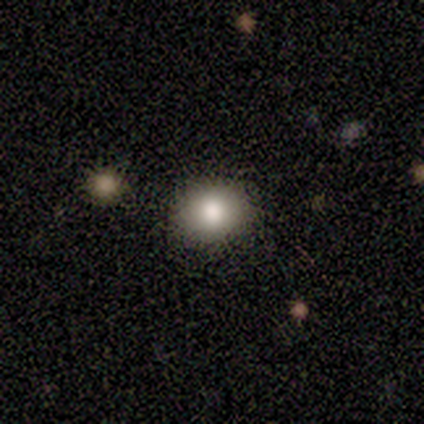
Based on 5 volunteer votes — Smooth or featured?
  - smooth: 80% *
  - featured or disk: 20%
  - star or artifact: 0%
How rounded?
  - round: 100% *
  - in between: 0%
  - cigar-shaped: 0%
Merging?
  - none: 100% *
  - minor disturbance: 0%
  - major disturbance: 0%
  - merger: 0%